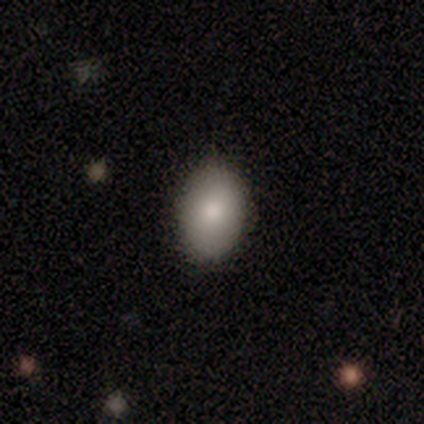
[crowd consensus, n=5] Smooth or featured? 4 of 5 (80%) said smooth. How rounded? 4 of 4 (100%) said in between. Merging? 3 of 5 (60%) said none.